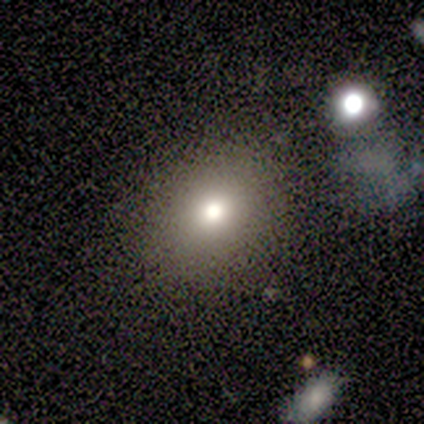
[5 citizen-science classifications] smooth 80%, star or artifact 20%, featured or disk 0%. Down the decision tree: how rounded — round (50%, tied with in between); merging — none (75%).